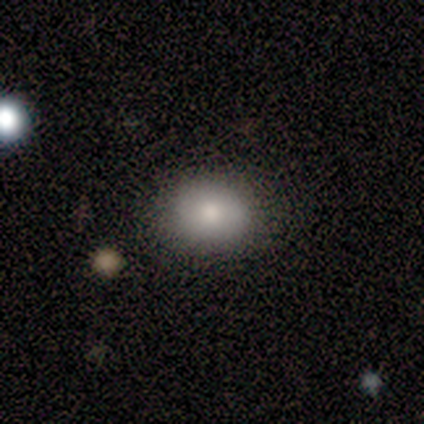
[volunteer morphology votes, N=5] type=smooth (100%); roundness=in between (60%); merging=none (100%).